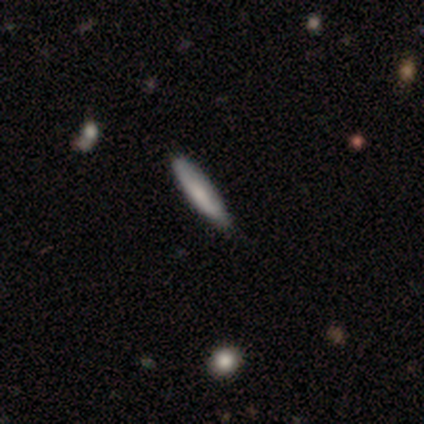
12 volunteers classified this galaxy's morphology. smooth 58%, featured or disk 33%, star or artifact 8%. Down the decision tree: how rounded — cigar-shaped (100%); merging — none (73%).